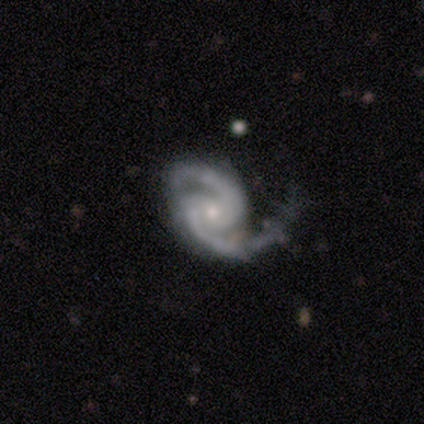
Overall: featured or disk (91%). Edge-on disk: no (99%). Bar: no (66%). Spiral arms: yes (98%). Spiral arm count: 2 (99%). Spiral winding: medium (56%; tight 33%). Bulge size: small (72%). Merging: none (57%; minor disturbance 25%).